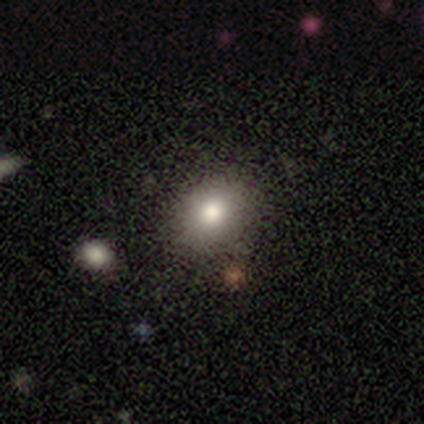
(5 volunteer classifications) Smooth or featured?
  - smooth: 60% *
  - featured or disk: 20%
  - star or artifact: 20%
How rounded?
  - in between: 67% *
  - round: 33%
  - cigar-shaped: 0%
Merging?
  - none: 75% *
  - major disturbance: 25%
  - minor disturbance: 0%
  - merger: 0%